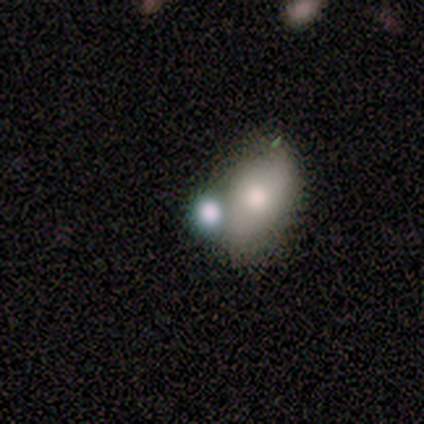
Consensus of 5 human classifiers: Overall: smooth (60%; featured or disk 20%). How rounded: in between (100%). Merging: none (75%).